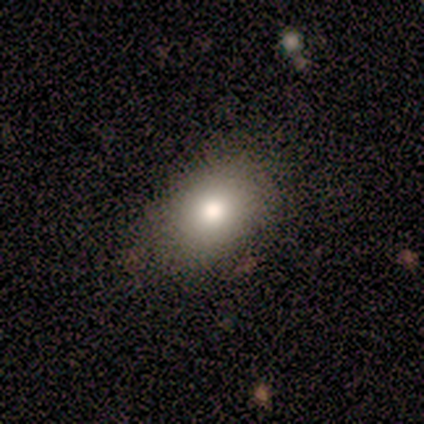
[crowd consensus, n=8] A smooth galaxy with no disk features (75%) that is in between round and cigar-shaped (83%).

Vote fractions:
- Smooth or featured? smooth: 75% / featured or disk: 25% / star or artifact: 0%
- How rounded? in between: 83% / round: 17% / cigar-shaped: 0%
- Merging? none: 62% / minor disturbance: 38% / major disturbance: 0% / merger: 0%